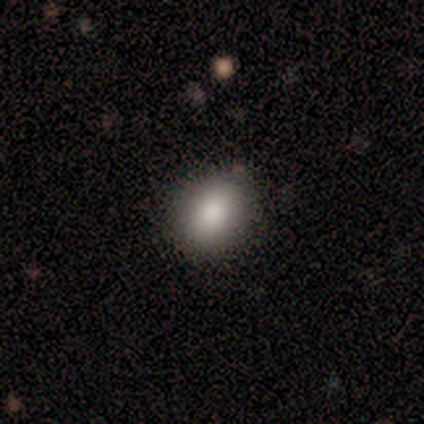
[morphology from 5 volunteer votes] type=smooth (100%); roundness=in between (80%); merging=none (100%).